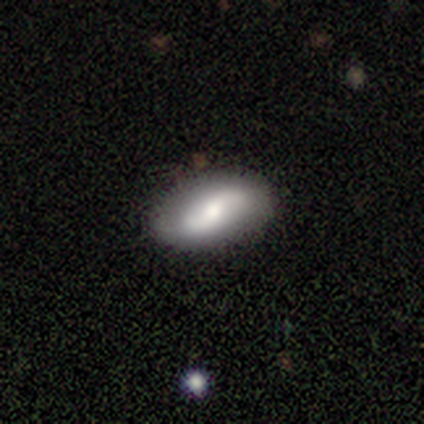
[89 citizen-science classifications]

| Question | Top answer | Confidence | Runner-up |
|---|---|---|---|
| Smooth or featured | featured or disk | 62% | smooth (34%) |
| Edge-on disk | no | 98% | yes (2%) |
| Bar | no | 48% | weak (44%) |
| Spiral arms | yes | 81% | no (19%) |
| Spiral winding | loose | 73% | tight (18%) |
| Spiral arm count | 2 | 89% | can't tell (9%) |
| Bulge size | moderate | 57% | small (31%) |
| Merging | none | 89% | minor disturbance (6%) |